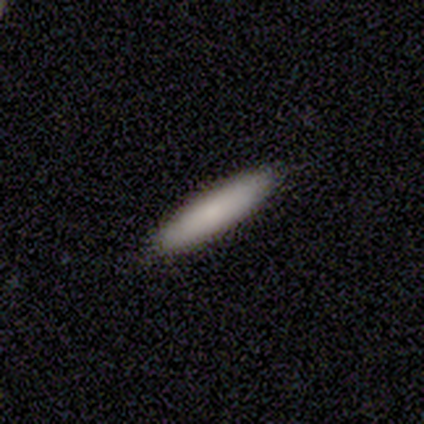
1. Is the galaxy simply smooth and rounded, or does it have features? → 84% smooth, 14% featured or disk, 3% star or artifact.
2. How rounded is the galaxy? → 81% cigar-shaped, 19% in between, 0% round.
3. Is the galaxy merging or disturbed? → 86% none, 11% minor disturbance, 3% major disturbance, 0% merger.